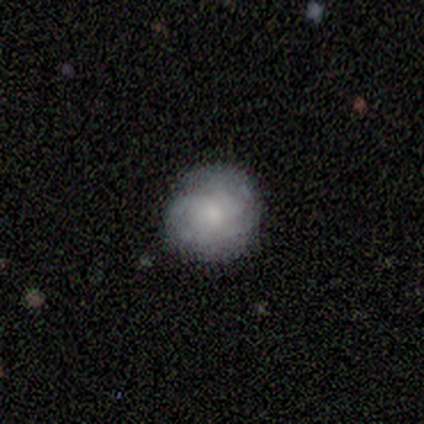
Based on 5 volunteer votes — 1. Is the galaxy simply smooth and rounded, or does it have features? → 60% featured or disk, 40% smooth, 0% star or artifact.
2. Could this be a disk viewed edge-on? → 100% no, 0% yes.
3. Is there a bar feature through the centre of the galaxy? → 67% weak, 33% no, 0% strong.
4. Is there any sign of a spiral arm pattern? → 100% yes, 0% no.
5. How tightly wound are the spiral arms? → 67% medium, 33% tight, 0% loose.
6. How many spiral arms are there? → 100% can't tell, 0% 1, 0% 2, 0% 3, 0% 4, 0% more than 4.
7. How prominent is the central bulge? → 67% moderate, 33% small, 0% dominant, 0% large, 0% none.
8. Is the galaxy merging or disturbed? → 100% none, 0% minor disturbance, 0% major disturbance, 0% merger.